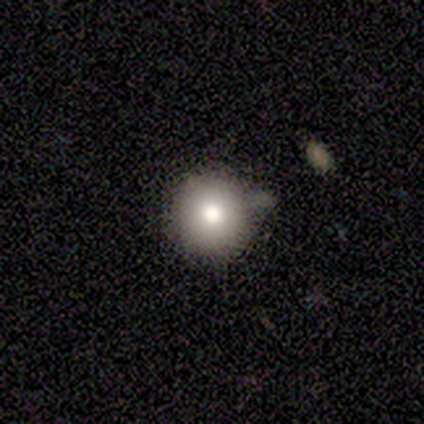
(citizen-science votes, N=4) This appears to be a smooth galaxy with no disk features (100%) that is round (100%). Merging: none (75%).